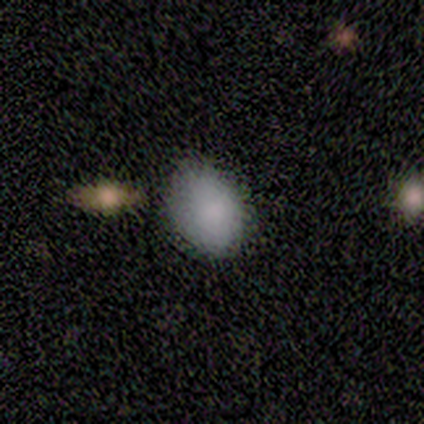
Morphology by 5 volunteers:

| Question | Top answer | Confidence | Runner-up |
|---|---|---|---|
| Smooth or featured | smooth | 100% | — |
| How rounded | in between | 100% | — |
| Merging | none | 100% | — |